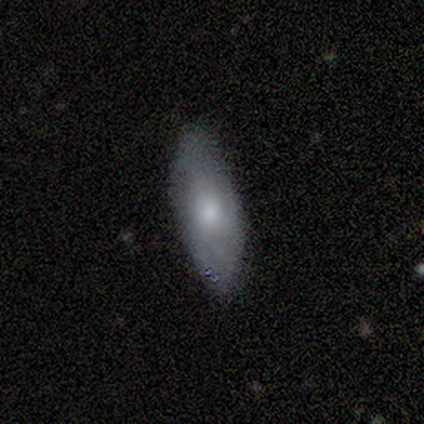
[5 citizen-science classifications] This appears to be a smooth galaxy with no disk features (80%) that is in between round and cigar-shaped (75%). Merging: none (75%).